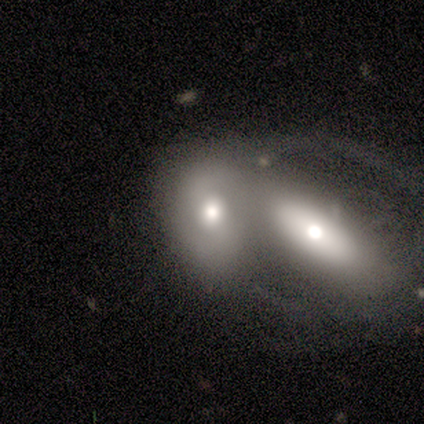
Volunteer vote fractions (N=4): Morphology: type=smooth (50%, tied with featured or disk); roundness=in between (100%); merging=merger (100%).